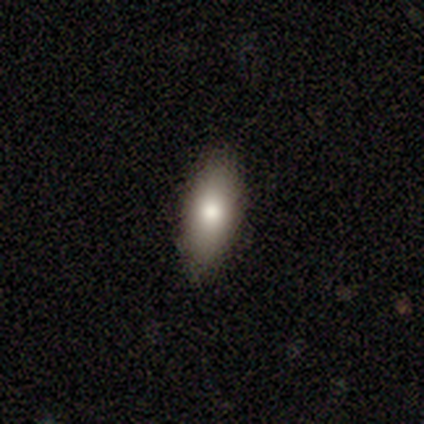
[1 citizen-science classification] A smooth galaxy with no disk features (100%) that is in between round and cigar-shaped (100%). Merging: none (100%).